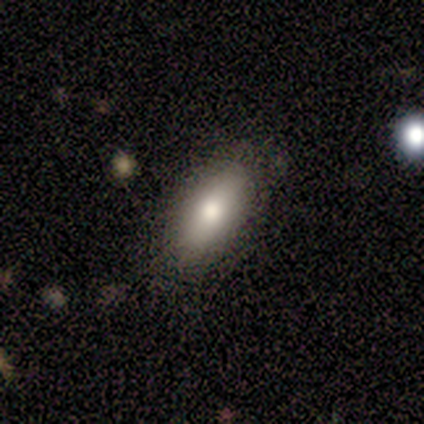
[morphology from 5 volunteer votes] Q: Smooth or featured?
A: smooth (80%); runner-up: star or artifact (20%)
Q: How rounded?
A: in between (100%)
Q: Merging?
A: none (75%); runner-up: minor disturbance (25%)